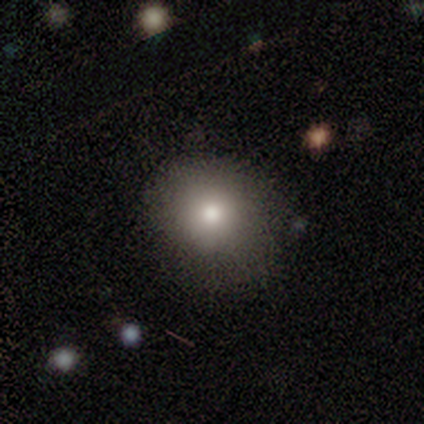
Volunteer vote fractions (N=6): This is clearly a smooth galaxy (83%). How rounded: clearly round (100%). Merging: clearly none (80%).